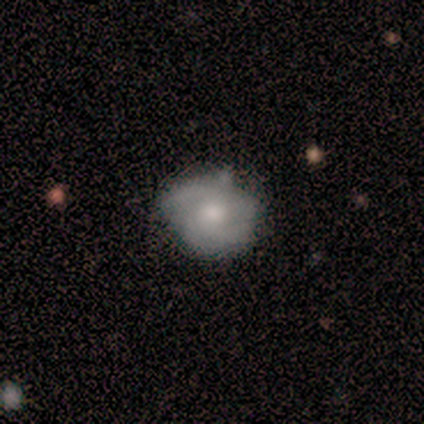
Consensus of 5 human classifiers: Smooth or featured?
  - featured or disk: 60% *
  - smooth: 40%
  - star or artifact: 0%
Edge-on disk?
  - no: 100% *
  - yes: 0%
Bar?
  - weak: 67% *
  - no: 33%
  - strong: 0%
Spiral arms?
  - yes: 67% *
  - no: 33%
Spiral winding?
  - medium: 50% * (tied)
  - loose: 50% * (tied)
  - tight: 0%
Spiral arm count?
  - 2: 50% * (tied)
  - 3: 50% * (tied)
  - 1: 0%
  - 4: 0%
  - more than 4: 0%
  - can't tell: 0%
Bulge size?
  - small: 67% *
  - moderate: 33%
  - dominant: 0%
  - large: 0%
  - none: 0%
Merging?
  - none: 100% *
  - minor disturbance: 0%
  - major disturbance: 0%
  - merger: 0%